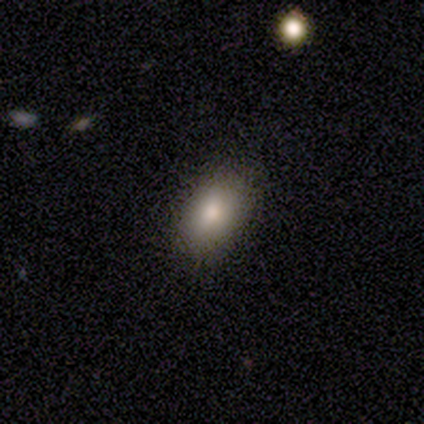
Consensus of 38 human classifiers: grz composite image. It shows a smooth galaxy with no disk features (87%) that is in between round and cigar-shaped (88%). Merging: none (94%).